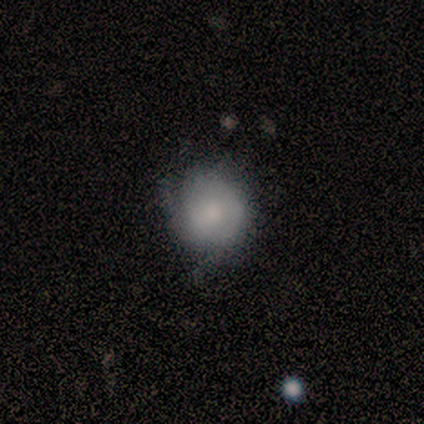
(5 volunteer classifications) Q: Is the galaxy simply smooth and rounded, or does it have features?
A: smooth — 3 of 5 (60%).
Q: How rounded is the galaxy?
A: round — 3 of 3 (100%).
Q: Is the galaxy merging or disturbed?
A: minor disturbance — 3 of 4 (75%).